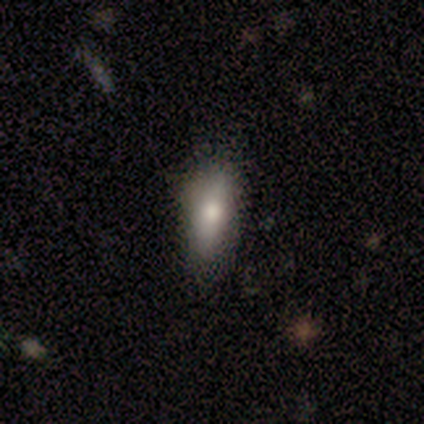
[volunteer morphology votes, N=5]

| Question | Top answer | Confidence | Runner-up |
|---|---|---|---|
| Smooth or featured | smooth | 60% | featured or disk (20%) |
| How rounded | cigar-shaped | 100% | — |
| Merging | none | 75% | minor disturbance (25%) |